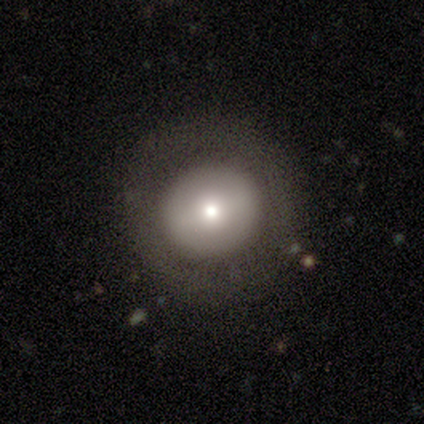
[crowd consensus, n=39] Q: Smooth or featured?
A: smooth (46%); runner-up: featured or disk (44%)
Q: How rounded?
A: round (94%); runner-up: in between (6%)
Q: Merging?
A: none (83%); runner-up: major disturbance (11%)